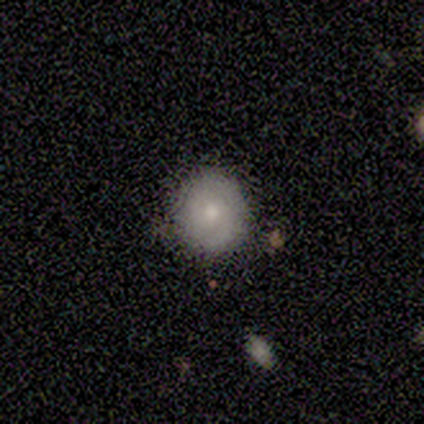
A smooth galaxy with no disk features (40%, tied with featured or disk) that is round (100%).

Vote fractions:
- Smooth or featured? smooth: 40% (tied) / featured or disk: 40% (tied) / star or artifact: 20%
- How rounded? round: 100% / in between: 0% / cigar-shaped: 0%
- Merging? none: 75% / minor disturbance: 25% / major disturbance: 0% / merger: 0%